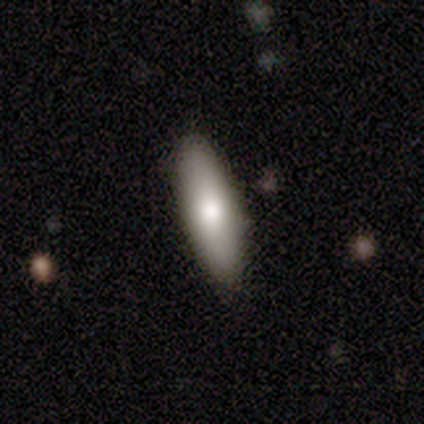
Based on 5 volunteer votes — Overall: featured or disk (60%; smooth 40%). Edge-on disk: no (67%; yes 33%). Bar: no (100%). Spiral arms: no (100%). Bulge size: large (50%, tied with moderate). Merging: none (80%).